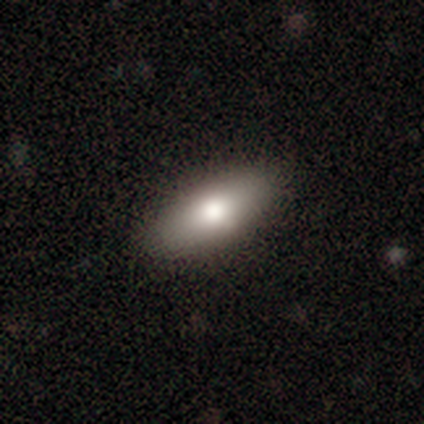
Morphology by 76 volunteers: Smooth or featured: smooth — 83% (featured or disk — 17%)
How rounded: in between — 89% (cigar-shaped — 11%)
Merging: none — 57% (minor disturbance — 7%)